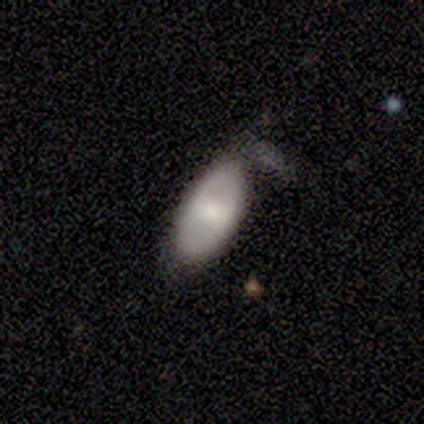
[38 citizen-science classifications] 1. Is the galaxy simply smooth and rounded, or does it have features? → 63% smooth, 32% featured or disk, 5% star or artifact.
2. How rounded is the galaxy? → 92% in between, 8% round, 0% cigar-shaped.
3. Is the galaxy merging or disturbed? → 42% minor disturbance, 33% none, 17% major disturbance, 8% merger.